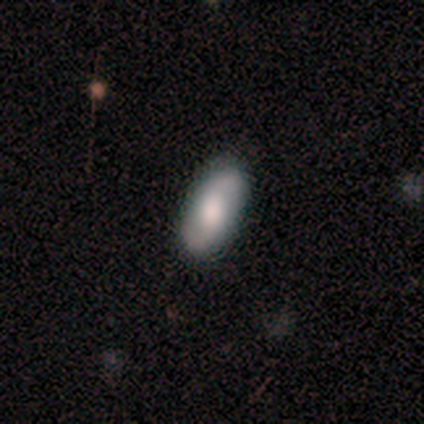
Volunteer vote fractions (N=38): Smooth or featured?
  - featured or disk: 55% *
  - smooth: 39%
  - star or artifact: 5%
Edge-on disk?
  - no: 90% *
  - yes: 10%
Bar?
  - weak: 47% * (tied)
  - no: 47% * (tied)
  - strong: 5%
Spiral arms?
  - yes: 89% *
  - no: 11%
Spiral winding?
  - loose: 53% *
  - medium: 35%
  - tight: 12%
Spiral arm count?
  - 2: 100% *
  - 1: 0%
  - 3: 0%
  - 4: 0%
  - more than 4: 0%
  - can't tell: 0%
Bulge size?
  - moderate: 47% *
  - large: 32%
  - small: 16%
  - dominant: 5%
  - none: 0%
Merging?
  - none: 89% *
  - minor disturbance: 6%
  - major disturbance: 6%
  - merger: 0%